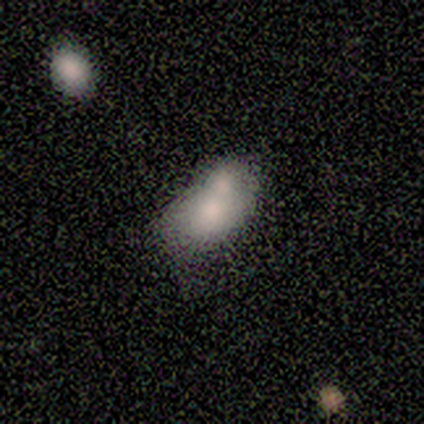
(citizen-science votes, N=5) This is clearly a smooth galaxy (80%). How rounded: clearly in between (100%). Merging: marginally merger (40%).